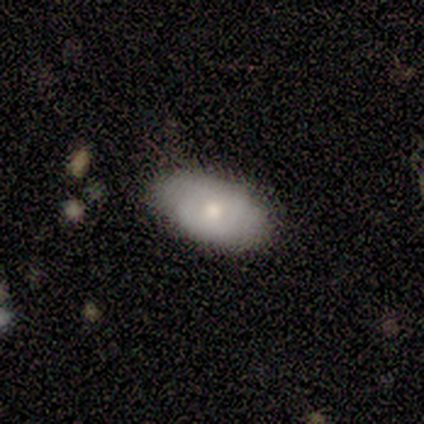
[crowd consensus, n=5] This appears to be a smooth galaxy with no disk features (80%) that is in between round and cigar-shaped (100%). Merging: none (100%).